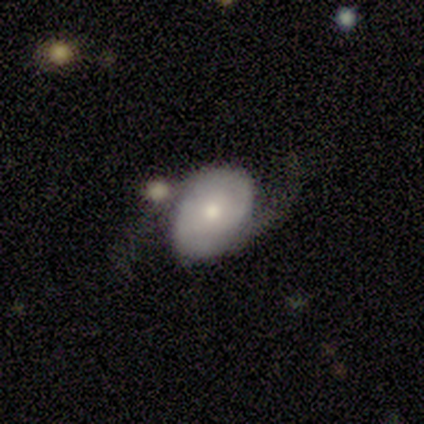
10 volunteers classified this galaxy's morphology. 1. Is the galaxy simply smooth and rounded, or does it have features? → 70% featured or disk, 20% smooth, 10% star or artifact.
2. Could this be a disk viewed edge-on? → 100% no, 0% yes.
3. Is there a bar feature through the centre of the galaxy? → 86% no, 14% weak, 0% strong.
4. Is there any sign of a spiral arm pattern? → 100% yes, 0% no.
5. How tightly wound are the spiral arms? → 86% medium, 14% tight, 0% loose.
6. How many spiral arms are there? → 100% 2, 0% 1, 0% 3, 0% 4, 0% more than 4, 0% can't tell.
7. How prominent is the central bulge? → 86% moderate, 14% small, 0% dominant, 0% large, 0% none.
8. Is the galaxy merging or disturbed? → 56% none, 22% major disturbance, 11% minor disturbance, 11% merger.